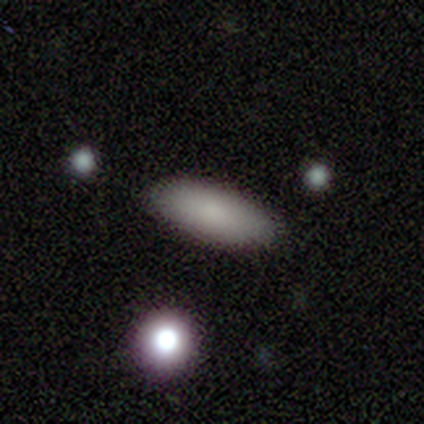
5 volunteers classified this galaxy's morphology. This appears to be a smooth galaxy with no disk features (80%) that is in between round and cigar-shaped (100%). Merging: none (100%).